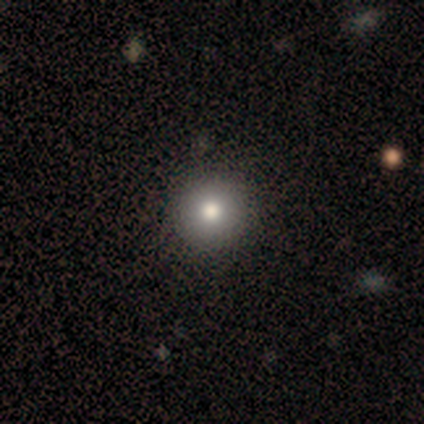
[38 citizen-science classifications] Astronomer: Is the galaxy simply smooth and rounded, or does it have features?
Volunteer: smooth — 68%.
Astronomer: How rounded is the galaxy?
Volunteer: round — 100%.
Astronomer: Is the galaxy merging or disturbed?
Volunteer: none — 87%.